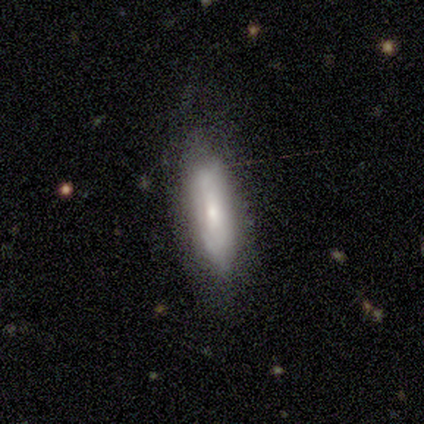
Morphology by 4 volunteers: Q: Smooth or featured?
A: smooth (50%); tied with: featured or disk (50%)
Q: How rounded?
A: in between (50%); tied with: cigar-shaped (50%)
Q: Merging?
A: none (50%); runner-up: minor disturbance (25%)